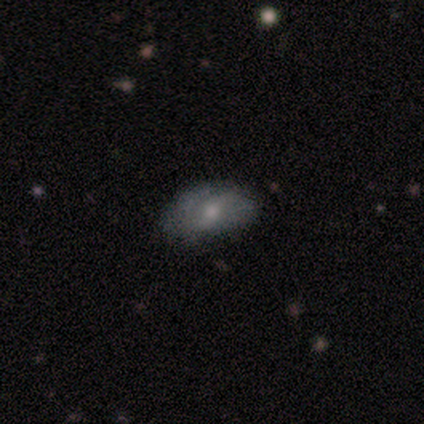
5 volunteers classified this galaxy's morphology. type=featured or disk (60%); edge-on=no (100%); bar=strong (33%, tied with weak and no); spiral arms=no (67%); bulge=moderate (67%); merging=none (60%).